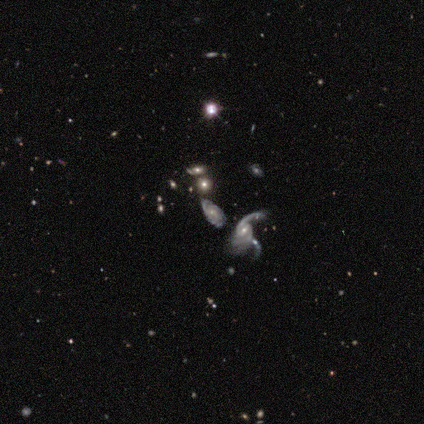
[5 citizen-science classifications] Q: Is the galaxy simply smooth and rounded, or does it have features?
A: featured or disk — 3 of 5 (60%).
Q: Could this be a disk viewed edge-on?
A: no — 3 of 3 (100%).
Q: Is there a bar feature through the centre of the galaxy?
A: no — 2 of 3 (67%).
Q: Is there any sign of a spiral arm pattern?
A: yes — 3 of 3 (100%).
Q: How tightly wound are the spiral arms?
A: loose — 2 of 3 (67%).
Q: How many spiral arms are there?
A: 1 — 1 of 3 (33%, tied with 2 and can't tell).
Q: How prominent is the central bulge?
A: small — 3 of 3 (100%).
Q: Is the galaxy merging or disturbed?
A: none — 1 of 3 (33%, tied with major disturbance and merger).